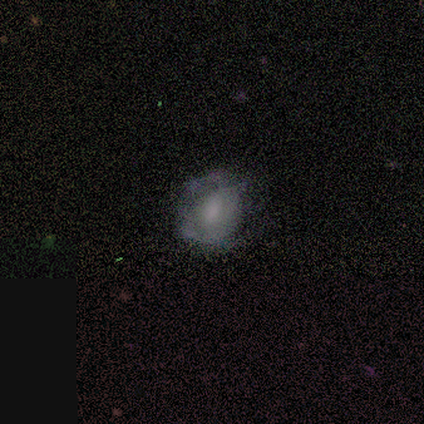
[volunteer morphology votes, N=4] Smooth or featured? 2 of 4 (50%, tied with featured or disk) said smooth. How rounded? 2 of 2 (100%) said round. Merging? 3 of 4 (75%) said none.